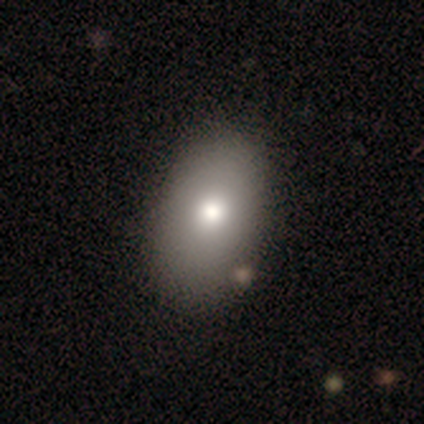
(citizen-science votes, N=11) Volunteers were most divided on "merging": none: 70%, minor disturbance: 30%, major disturbance: 0%, merger: 0%. More confident: how rounded — in between (100%); smooth or featured — smooth (82%).